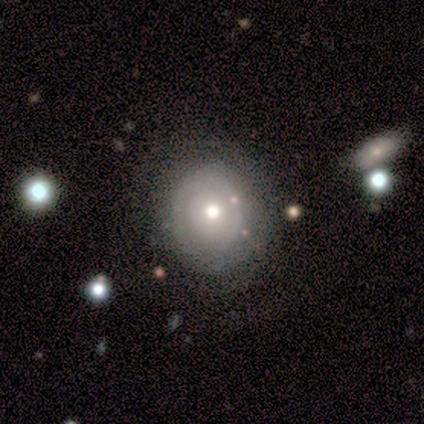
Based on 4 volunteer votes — Smooth or featured: featured or disk — 50% (smooth — 25%)
Edge-on disk: no — 100%
Bar: no — 100%
Spiral arms: yes — 50% (tied with no — 50%)
Spiral winding: tight — 100%
Spiral arm count: 1 — 100%
Bulge size: moderate — 100%
Merging: none — 100%